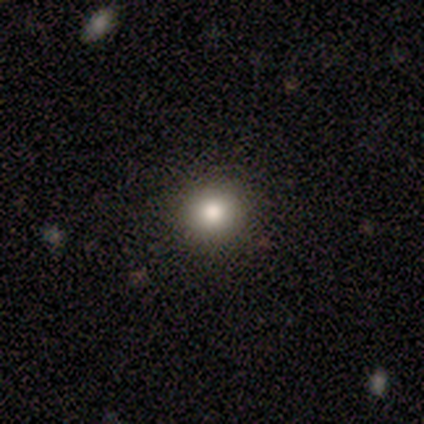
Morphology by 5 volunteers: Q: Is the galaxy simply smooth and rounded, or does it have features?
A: smooth — 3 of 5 (60%).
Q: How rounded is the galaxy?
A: round — 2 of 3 (67%).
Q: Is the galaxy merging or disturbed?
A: none — 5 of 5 (100%).